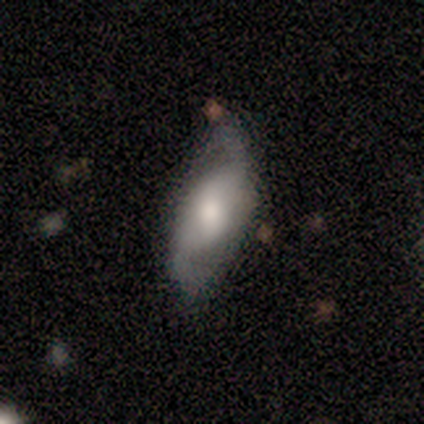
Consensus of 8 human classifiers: This is clearly a featured or disk galaxy (88%). It is clearly not viewed edge-on (100%). Bar: marginally strong (43%, tied with no). Spiral arm pattern: clearly yes (86%). Spiral arm count: clearly 2 (83%). Spiral winding: likely loose (67%). Central bulge: possibly large (57%). Merging: possibly none (50%).